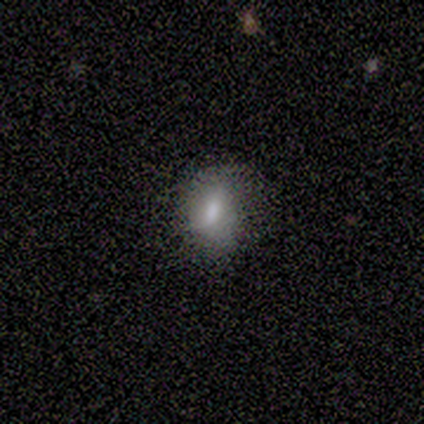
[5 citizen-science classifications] smooth 100%, featured or disk 0%, star or artifact 0%. Down the decision tree: how rounded — round (80%); merging — minor disturbance (80%).